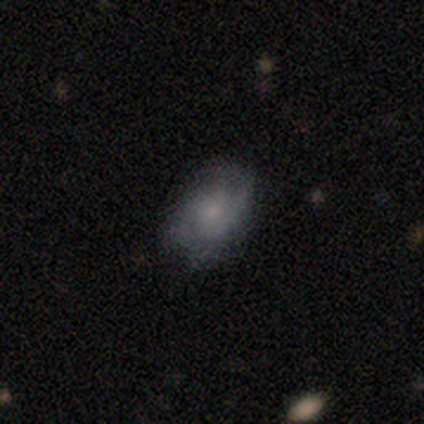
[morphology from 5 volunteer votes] Smooth or featured: featured or disk — 60% (smooth — 20%)
Edge-on disk: no — 100%
Bar: no — 100%
Spiral arms: yes — 67% (no — 33%)
Spiral winding: tight — 100%
Spiral arm count: 2 — 100%
Bulge size: moderate — 33% (tied with small — 33%; none — 33%)
Merging: none — 75% (major disturbance — 25%)